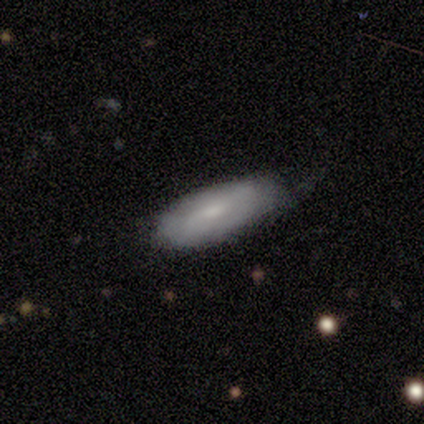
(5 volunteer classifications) Smooth or featured?
  - smooth: 60% *
  - featured or disk: 40%
  - star or artifact: 0%
How rounded?
  - in between: 100% *
  - round: 0%
  - cigar-shaped: 0%
Merging?
  - none: 80% *
  - major disturbance: 20%
  - minor disturbance: 0%
  - merger: 0%